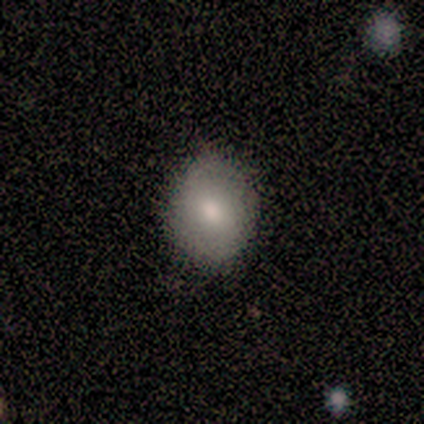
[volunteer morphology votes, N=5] This appears to be a smooth galaxy with no disk features (40%, tied with star or artifact) that is in between round and cigar-shaped (100%). Merging: minor disturbance (67%).